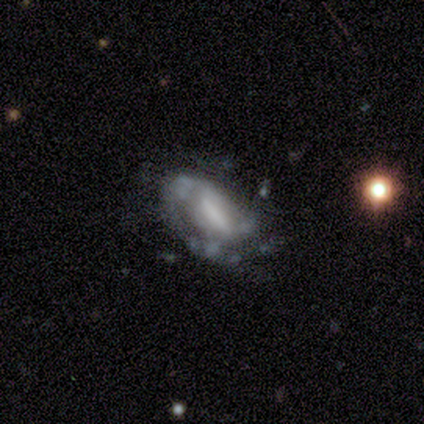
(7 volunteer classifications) smooth-or-featured: featured or disk: 100% | smooth: 0% | star or artifact: 0%
  disk-edge-on: no: 86% | yes: 14%
    bar: strong: 33% (tied) | weak: 33% (tied) | no: 33% (tied)
    has-spiral-arms: yes: 67% | no: 33%
      spiral-winding: tight: 50% | medium: 25% | loose: 25%
      spiral-arm-count: can't tell: 50% | 1: 25% | 3: 25% | 2: 0% | 4: 0% | more than 4: 0%
    bulge-size: small: 33% (tied) | none: 33% (tied) | large: 17% | moderate: 17% | dominant: 0%
  merging: major disturbance: 43% | none: 29% | minor disturbance: 29% | merger: 0%